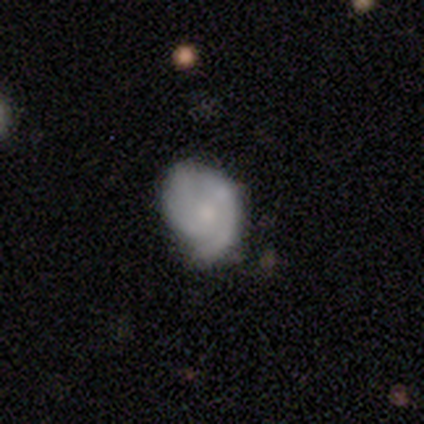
A featured or disk galaxy (75%) with a weak bar (50%, tied with no), 2 (100%) tight (40%, tied with medium) spiral arms (83%) and a moderate central bulge (50%).

Vote fractions:
- Smooth or featured? featured or disk: 75% / smooth: 25% / star or artifact: 0%
- Edge-on disk? no: 100% / yes: 0%
- Bar? weak: 50% (tied) / no: 50% (tied) / strong: 0%
- Spiral arms? yes: 83% / no: 17%
- Spiral winding? tight: 40% (tied) / medium: 40% (tied) / loose: 20%
- Spiral arm count? 2: 100% / 1: 0% / 3: 0% / 4: 0% / more than 4: 0% / can't tell: 0%
- Bulge size? moderate: 50% / small: 33% / none: 17% / dominant: 0% / large: 0%
- Merging? none: 50% (tied) / minor disturbance: 50% (tied) / major disturbance: 0% / merger: 0%